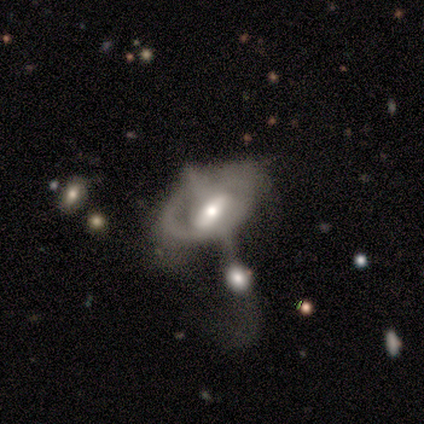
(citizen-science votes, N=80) Smooth or featured? 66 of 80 (82%) said featured or disk. Edge-on disk? 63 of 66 (95%) said no. Bar? 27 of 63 (43%) said weak. Spiral arms? 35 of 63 (56%) said no. Bulge size? 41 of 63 (65%) said moderate. Merging? 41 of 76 (54%) said merger.